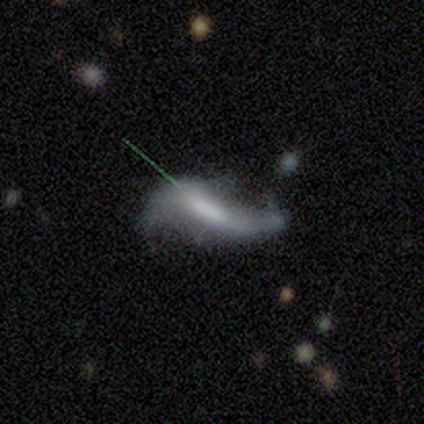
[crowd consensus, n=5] Q: Smooth or featured?
A: featured or disk (60%); runner-up: smooth (40%)
Q: Edge-on disk?
A: no (100%)
Q: Bar?
A: weak (67%); runner-up: strong (33%)
Q: Spiral arms?
A: yes (67%); runner-up: no (33%)
Q: Spiral winding?
A: loose (100%)
Q: Spiral arm count?
A: 2 (100%)
Q: Bulge size?
A: large (67%); runner-up: none (33%)
Q: Merging?
A: none (40%); runner-up: minor disturbance (20%)